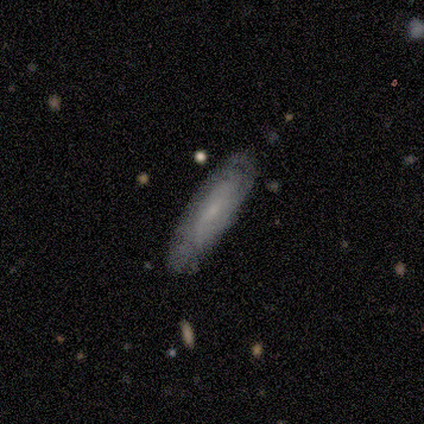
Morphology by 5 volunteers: Smooth or featured?
  - featured or disk: 60% *
  - smooth: 20%
  - star or artifact: 20%
Edge-on disk?
  - no: 67% *
  - yes: 33%
Bar?
  - weak: 50% * (tied)
  - no: 50% * (tied)
  - strong: 0%
Spiral arms?
  - yes: 100% *
  - no: 0%
Spiral winding?
  - tight: 100% *
  - medium: 0%
  - loose: 0%
Spiral arm count?
  - 2: 50% * (tied)
  - can't tell: 50% * (tied)
  - 1: 0%
  - 3: 0%
  - 4: 0%
  - more than 4: 0%
Bulge size?
  - small: 50% * (tied)
  - none: 50% * (tied)
  - dominant: 0%
  - large: 0%
  - moderate: 0%
Merging?
  - none: 100% *
  - minor disturbance: 0%
  - major disturbance: 0%
  - merger: 0%